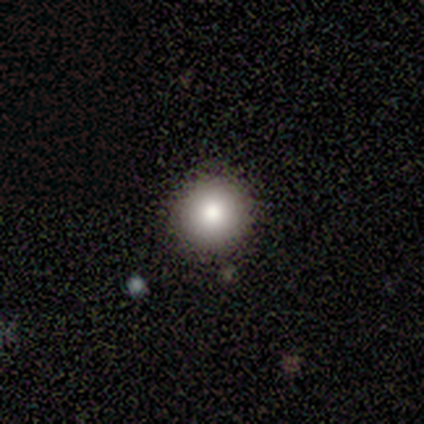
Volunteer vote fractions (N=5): This appears to be a smooth galaxy with no disk features (80%) that is round (100%). Merging: none (100%).